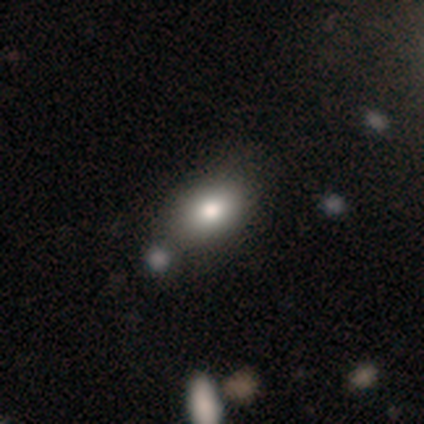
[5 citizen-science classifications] Q: Smooth or featured?
A: smooth (60%); runner-up: featured or disk (40%)
Q: How rounded?
A: in between (100%)
Q: Merging?
A: none (80%); runner-up: major disturbance (20%)